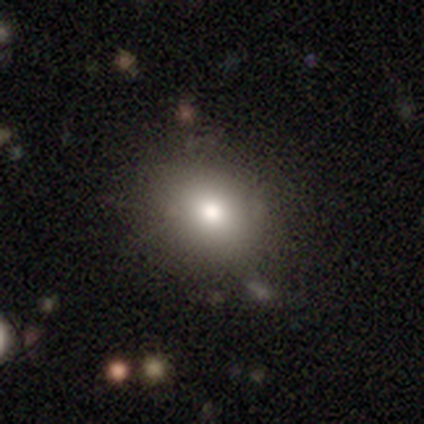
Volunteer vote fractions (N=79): Smooth or featured: smooth — 78% (star or artifact — 11%)
How rounded: round — 65% (in between — 35%)
Merging: none — 59% (minor disturbance — 3%)